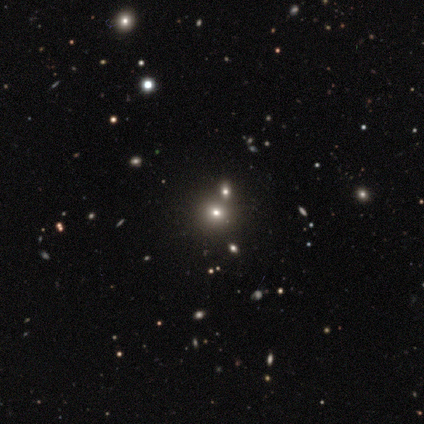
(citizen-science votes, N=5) This is likely a star or artifact rather than a galaxy (60%).